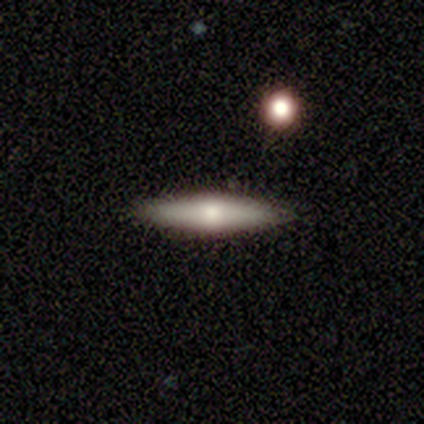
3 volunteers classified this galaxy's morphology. Smooth or featured?
  - smooth: 100% *
  - featured or disk: 0%
  - star or artifact: 0%
How rounded?
  - cigar-shaped: 100% *
  - round: 0%
  - in between: 0%
Merging?
  - none: 100% *
  - minor disturbance: 0%
  - major disturbance: 0%
  - merger: 0%